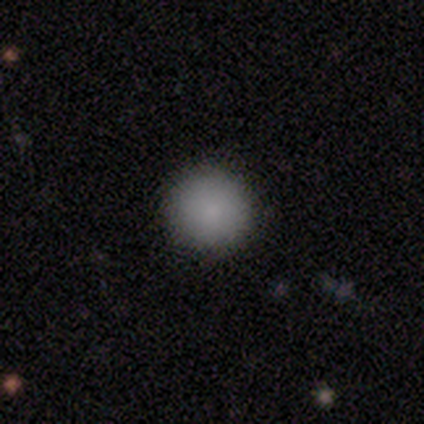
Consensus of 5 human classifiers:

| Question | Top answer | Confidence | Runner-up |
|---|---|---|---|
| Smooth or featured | smooth | 80% | star or artifact (20%) |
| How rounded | round | 100% | — |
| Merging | none | 75% | minor disturbance (25%) |